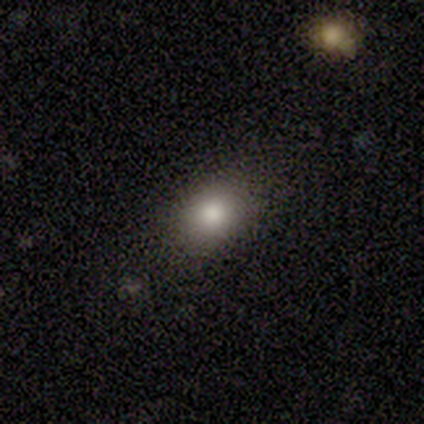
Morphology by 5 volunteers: A smooth galaxy with no disk features (60%) that is in between round and cigar-shaped (67%).

Vote fractions:
- Smooth or featured? smooth: 60% / featured or disk: 40% / star or artifact: 0%
- How rounded? in between: 67% / round: 33% / cigar-shaped: 0%
- Merging? none: 100% / minor disturbance: 0% / major disturbance: 0% / merger: 0%